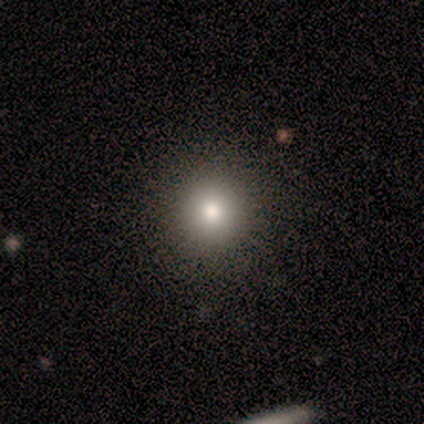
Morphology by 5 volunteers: Q: Smooth or featured?
A: smooth (100%)
Q: How rounded?
A: round (100%)
Q: Merging?
A: none (100%)